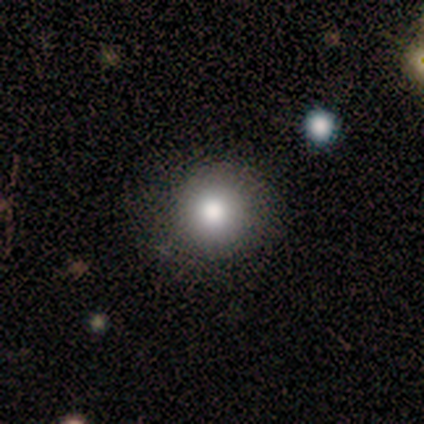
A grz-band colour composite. It shows a smooth galaxy with no disk features (100%) that is round (100%). Merging: none (100%).